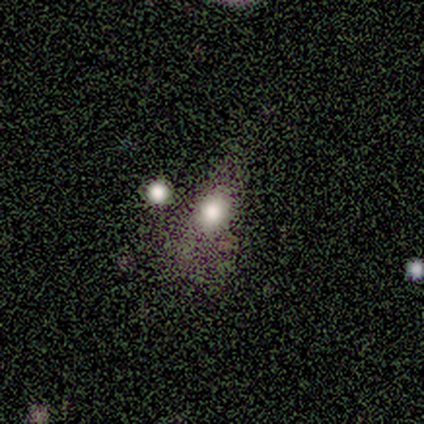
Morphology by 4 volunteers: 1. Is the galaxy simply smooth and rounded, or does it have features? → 75% smooth, 25% featured or disk, 0% star or artifact.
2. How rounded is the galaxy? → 100% in between, 0% round, 0% cigar-shaped.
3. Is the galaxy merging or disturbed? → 50% none (tied), 50% minor disturbance (tied), 0% major disturbance, 0% merger.